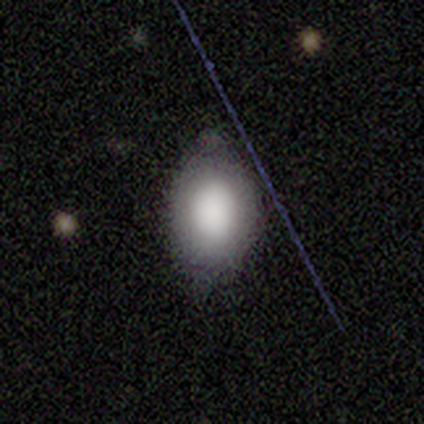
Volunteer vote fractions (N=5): smooth-or-featured: smooth: 80% | featured or disk: 20% | star or artifact: 0%
  how-rounded: round: 50% (tied) | in between: 50% (tied) | cigar-shaped: 0%
  merging: none: 100% | minor disturbance: 0% | major disturbance: 0% | merger: 0%